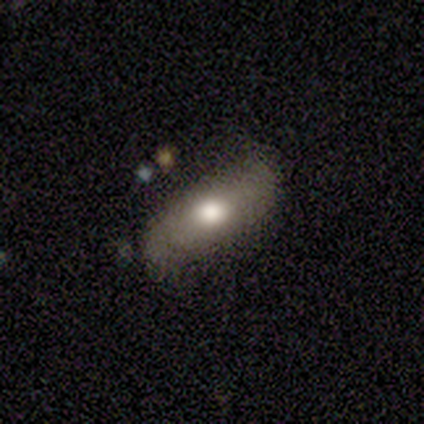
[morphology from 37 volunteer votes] smooth_or_featured: smooth (p=0.43) [alt: featured or disk p=0.41]
how_rounded: in between (p=0.69) [alt: cigar-shaped p=0.31]
merging: none (p=0.71) [alt: minor disturbance p=0.26]